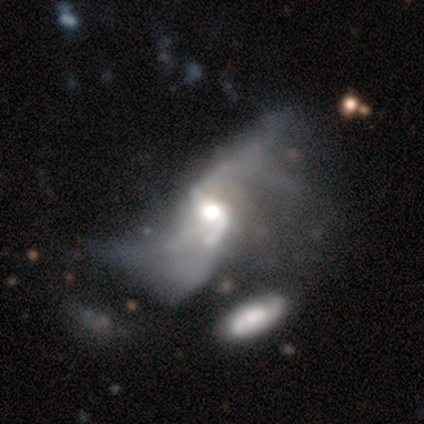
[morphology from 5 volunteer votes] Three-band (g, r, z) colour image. It shows a featured or disk galaxy (100%) with a weak bar (60%), 2 (75%) loose (75%) spiral arms (80%) and a large central bulge (60%). Merging: merger (60%).